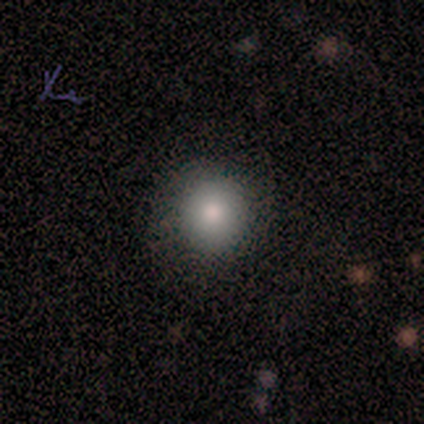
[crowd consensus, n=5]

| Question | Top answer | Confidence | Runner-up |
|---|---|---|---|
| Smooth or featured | smooth | 80% | star or artifact (20%) |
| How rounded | round | 100% | — |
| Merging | none | 75% | minor disturbance (25%) |